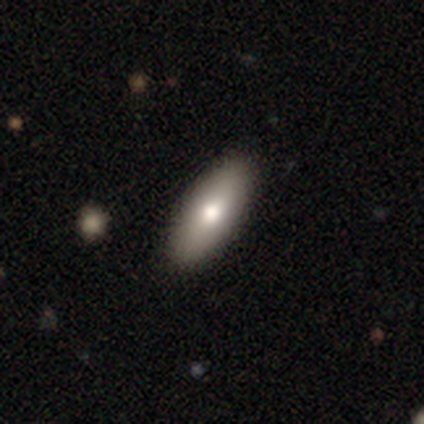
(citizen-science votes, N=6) Overall: smooth (83%). How rounded: in between (100%). Merging: none (100%).